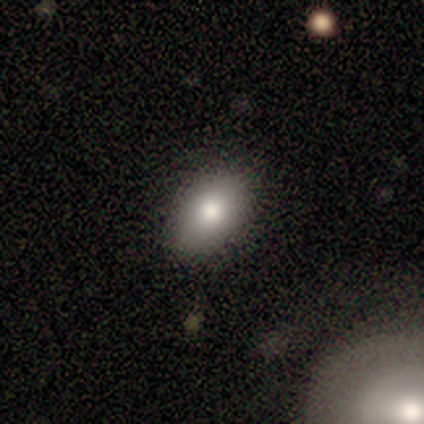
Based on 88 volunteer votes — Q: Smooth or featured?
A: smooth (80%); runner-up: featured or disk (14%)
Q: How rounded?
A: in between (86%); runner-up: round (13%)
Q: Merging?
A: none (77%); runner-up: minor disturbance (20%)